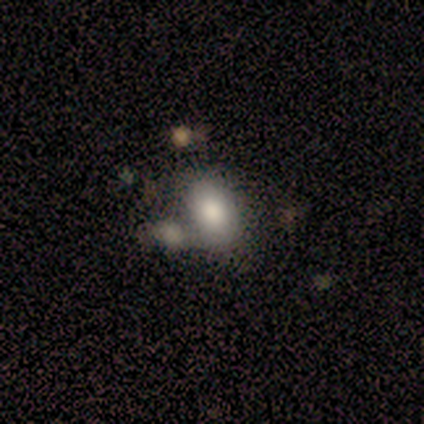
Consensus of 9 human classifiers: This is likely a smooth galaxy (67%). How rounded: clearly in between (83%). Merging: possibly merger (50%).